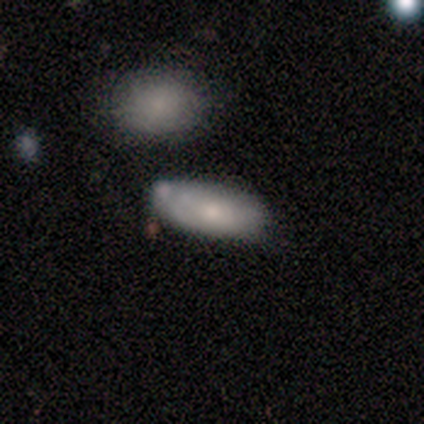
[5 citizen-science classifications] Overall: smooth (80%). How rounded: in between (100%). Merging: none (40%, tied with minor disturbance).